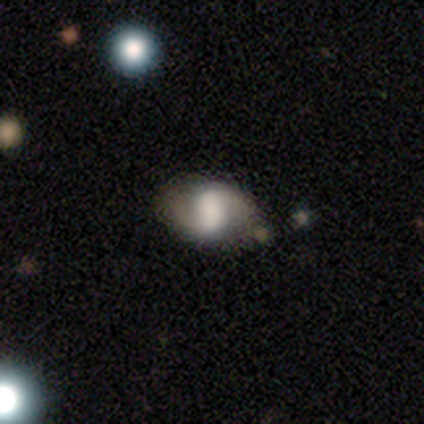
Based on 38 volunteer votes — Smooth or featured? 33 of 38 (87%) said featured or disk. Edge-on disk? 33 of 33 (100%) said no. Bar? 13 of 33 (39%) said no. Spiral arms? 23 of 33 (70%) said yes. Spiral winding? 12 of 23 (52%) said loose. Spiral arm count? 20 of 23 (87%) said 2. Bulge size? 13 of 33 (39%) said large. Merging? 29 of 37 (78%) said none.